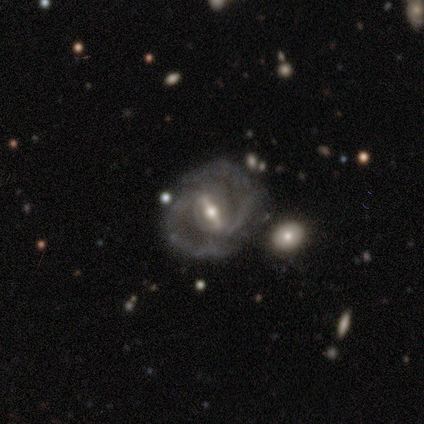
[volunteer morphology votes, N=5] Smooth or featured? featured or disk (100%)
Edge-on disk? no (100%)
Bar? strong (80%)
Spiral arms? yes (100%)
Spiral winding? medium (100%)
Spiral arm count? 2 (100%)
Bulge size? small (60%)
Merging? none (100%)